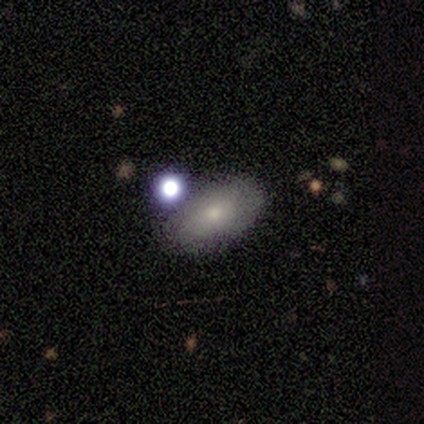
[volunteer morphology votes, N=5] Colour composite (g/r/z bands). It shows a smooth galaxy with no disk features (80%) that is in between round and cigar-shaped (75%). Merging: none (50%).